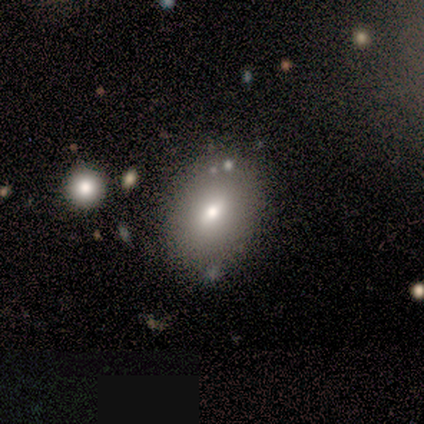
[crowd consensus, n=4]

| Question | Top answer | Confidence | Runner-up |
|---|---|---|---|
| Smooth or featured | smooth | 100% | — |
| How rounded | in between | 75% | round (25%) |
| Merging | none | 100% | — |